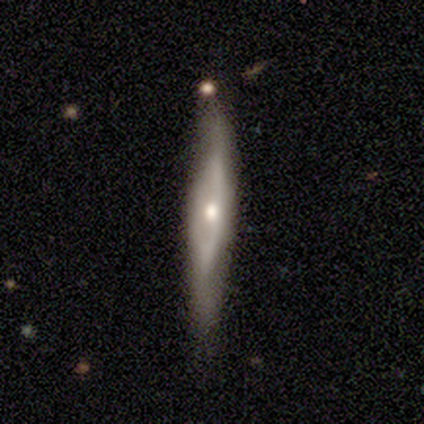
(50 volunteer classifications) Smooth or featured: featured or disk — 76% (smooth — 22%)
Edge-on disk: yes — 66% (no — 34%)
Edge-on bulge: rounded — 76% (boxy — 12%)
Merging: none — 63% (minor disturbance — 33%)